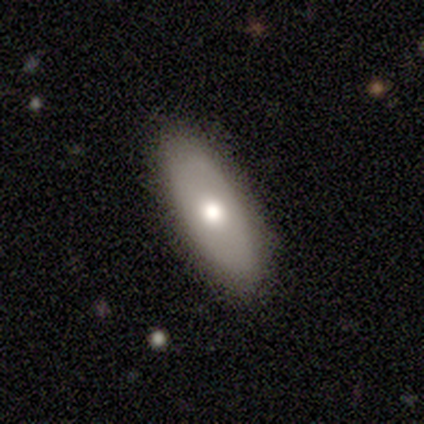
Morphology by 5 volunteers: Volunteers were most divided on "how rounded": in between: 75%, cigar-shaped: 25%, round: 0%. More confident: merging — none (100%); smooth or featured — smooth (80%).